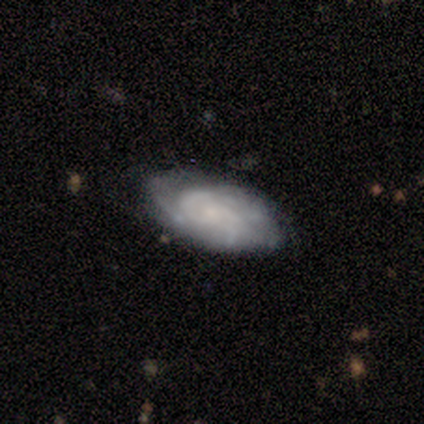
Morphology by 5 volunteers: type=featured or disk (60%); edge-on=no (67%); bar=no (100%); spiral arms=yes (100%); winding=tight (50%, tied with loose); arm count=2 (50%, tied with can't tell); bulge=dominant (50%, tied with small); merging=none (50%, tied with minor disturbance).